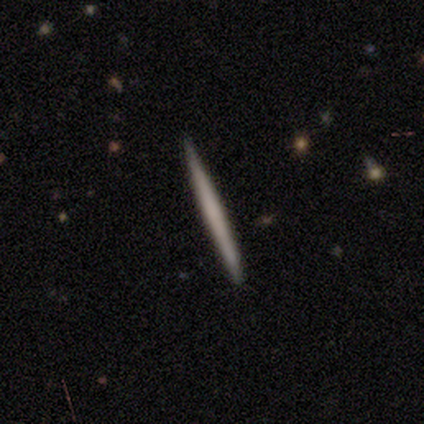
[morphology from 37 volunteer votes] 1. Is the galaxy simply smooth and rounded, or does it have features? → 54% smooth, 46% featured or disk, 0% star or artifact.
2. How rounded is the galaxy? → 100% cigar-shaped, 0% round, 0% in between.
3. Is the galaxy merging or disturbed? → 70% none, 11% minor disturbance, 0% major disturbance, 0% merger.